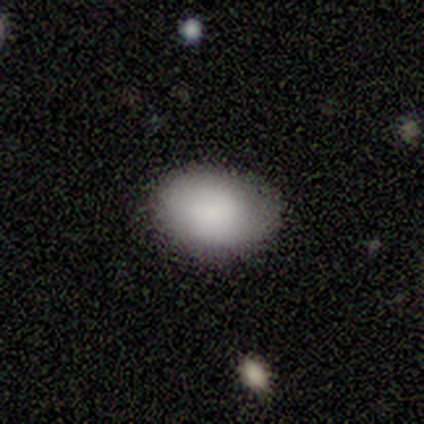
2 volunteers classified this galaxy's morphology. smooth_or_featured: smooth (p=1.00)
how_rounded: in between (p=1.00)
merging: none (p=1.00)